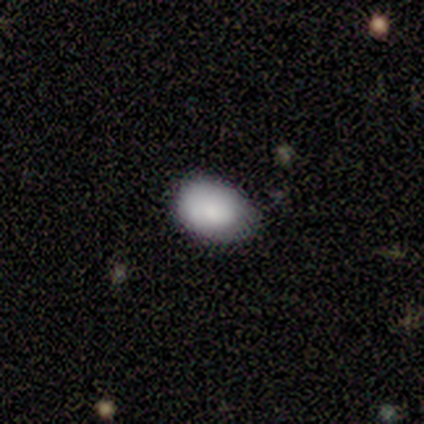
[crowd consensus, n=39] Smooth or featured? smooth (74%)
How rounded? in between (86%)
Merging? none (49%)